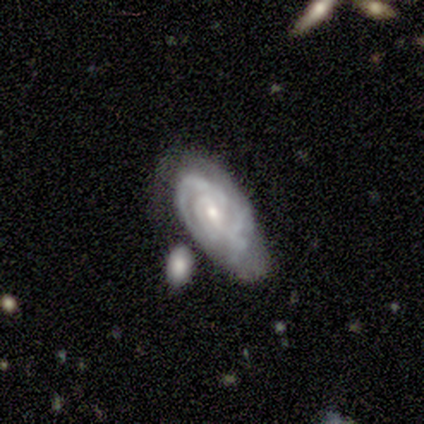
A featured or disk galaxy (80%) with no bar (50%), tight (50%, tied with medium) spiral arms (100%) and a moderate central bulge (75%).

Vote fractions:
- Smooth or featured? featured or disk: 80% / smooth: 20% / star or artifact: 0%
- Edge-on disk? no: 100% / yes: 0%
- Bar? no: 50% / strong: 25% / weak: 25%
- Spiral arms? yes: 100% / no: 0%
- Spiral winding? tight: 50% (tied) / medium: 50% (tied) / loose: 0%
- Spiral arm count? can't tell: 75% / 4: 25% / 1: 0% / 2: 0% / 3: 0% / more than 4: 0%
- Bulge size? moderate: 75% / small: 25% / dominant: 0% / large: 0% / none: 0%
- Merging? none: 80% / merger: 20% / minor disturbance: 0% / major disturbance: 0%